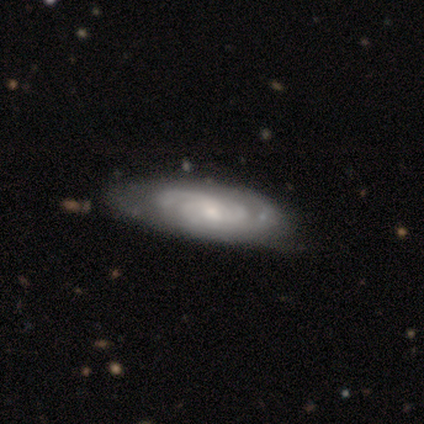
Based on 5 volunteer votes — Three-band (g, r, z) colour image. It shows a featured or disk galaxy (80%) with no bar (100%), 2 (75%) tight (75%) spiral arms (100%) and a small central bulge (75%). Merging: none (80%).